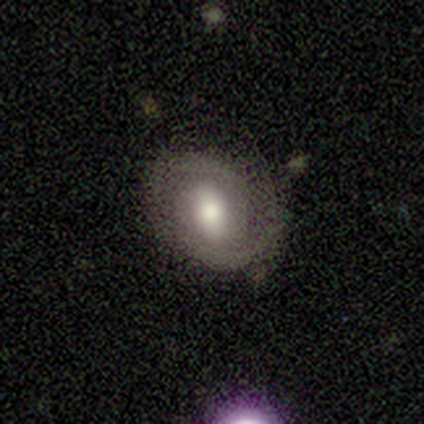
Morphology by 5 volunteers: featured or disk 80%, smooth 20%, star or artifact 0%. Down the decision tree: edge-on disk — no (100%); bar — weak (75%); spiral arms — yes (75%); spiral arm count — 2 (100%); spiral winding — tight (100%); bulge size — moderate (100%); merging — minor disturbance (60%).